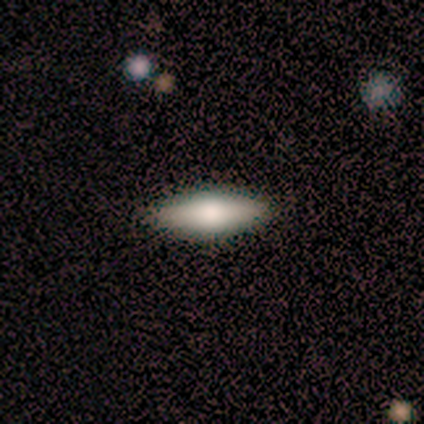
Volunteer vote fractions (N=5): Smooth or featured? 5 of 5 (100%) said smooth. How rounded? 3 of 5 (60%) said cigar-shaped. Merging? 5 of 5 (100%) said none.